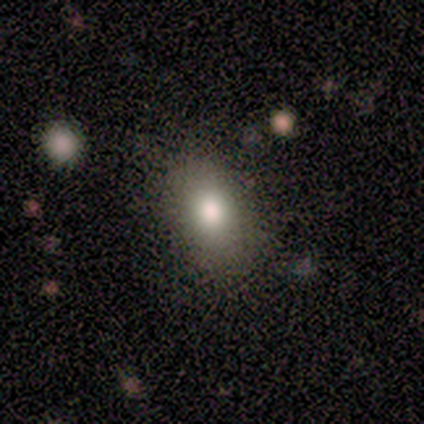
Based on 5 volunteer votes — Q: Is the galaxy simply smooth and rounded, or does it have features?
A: smooth — 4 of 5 (80%).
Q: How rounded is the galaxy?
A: in between — 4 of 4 (100%).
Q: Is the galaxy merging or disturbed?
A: none — 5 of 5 (100%).